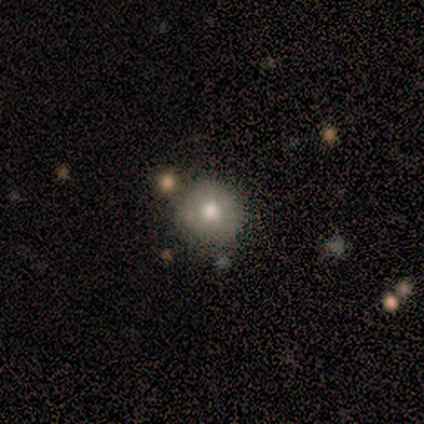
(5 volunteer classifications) smooth_or_featured: smooth (p=0.40) [tied with: featured or disk p=0.40]
how_rounded: round (p=1.00)
merging: minor disturbance (p=0.50) [alt: none p=0.25]